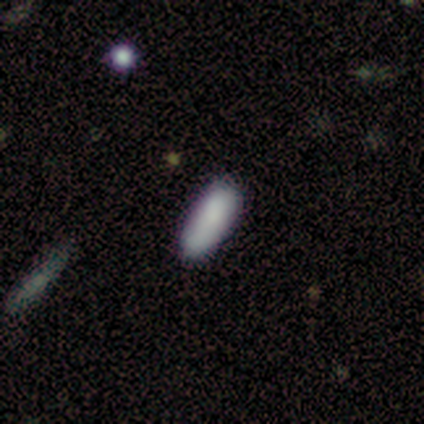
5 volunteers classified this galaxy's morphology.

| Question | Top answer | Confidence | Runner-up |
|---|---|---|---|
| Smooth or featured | smooth | 80% | featured or disk (20%) |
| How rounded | in between | 50% | tied: cigar-shaped (50%) |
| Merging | none | 60% | minor disturbance (20%) |